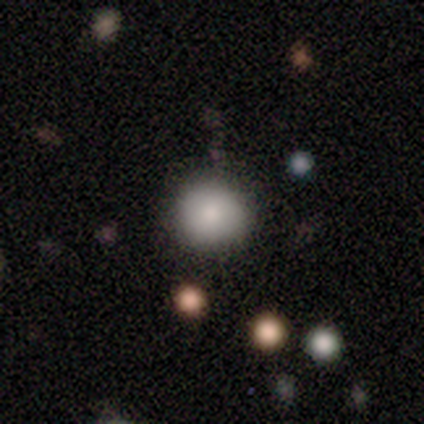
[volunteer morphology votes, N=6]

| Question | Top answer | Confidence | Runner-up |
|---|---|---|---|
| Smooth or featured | smooth | 83% | star or artifact (17%) |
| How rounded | round | 100% | — |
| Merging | none | 80% | minor disturbance (20%) |